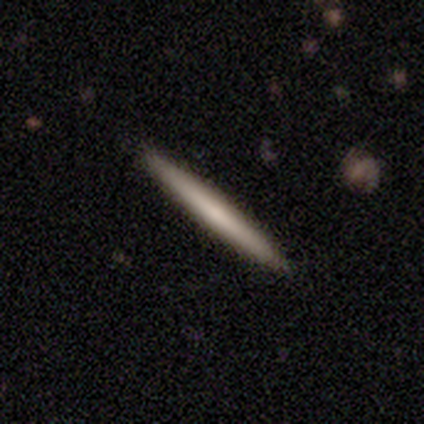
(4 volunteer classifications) Volunteers were most divided on "edge-on bulge": none: 67%, rounded: 33%, boxy: 0%. More confident: smooth or featured — featured or disk (100%); edge-on disk — yes (75%); merging — none (75%).